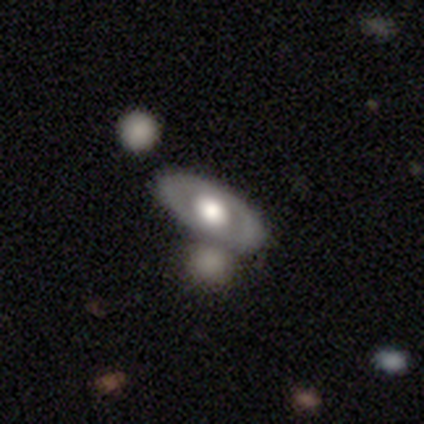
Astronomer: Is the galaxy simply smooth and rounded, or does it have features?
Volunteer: smooth — 67%.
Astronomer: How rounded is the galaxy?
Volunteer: in between — 100%.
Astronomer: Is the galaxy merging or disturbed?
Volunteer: none — 50%, tied with merger at 50%.